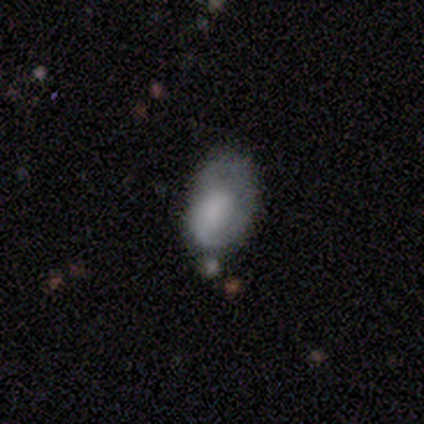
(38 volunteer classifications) smooth-or-featured: smooth: 50% | featured or disk: 37% | star or artifact: 13%
  how-rounded: in between: 95% | round: 5% | cigar-shaped: 0%
  merging: minor disturbance: 39% | none: 30% | major disturbance: 21% | merger: 9%